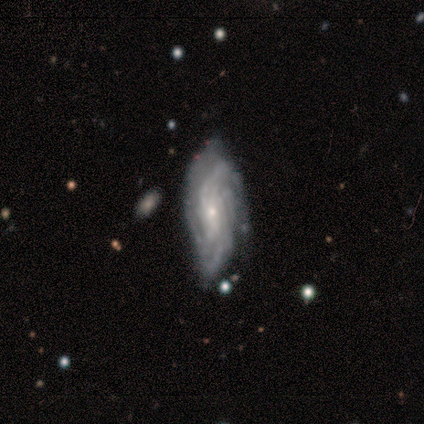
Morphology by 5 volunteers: This appears to be a featured or disk galaxy (100%) with no bar (60%), tight (60%) spiral arms (100%) and a small central bulge (100%). Merging: none (40%, tied with minor disturbance).